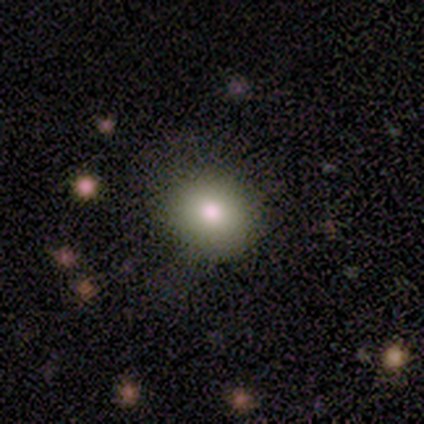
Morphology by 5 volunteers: Smooth or featured? 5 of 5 (100%) said smooth. How rounded? 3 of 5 (60%) said round. Merging? 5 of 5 (100%) said none.